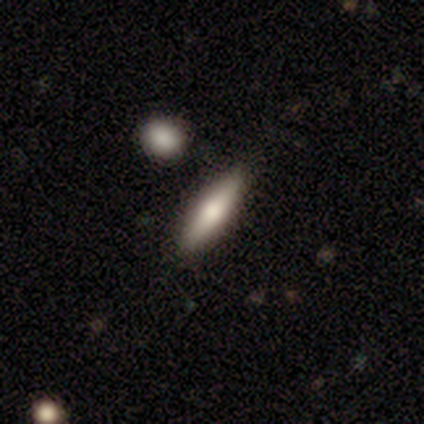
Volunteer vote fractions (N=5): A smooth galaxy with no disk features (40%, tied with featured or disk) that is in between round and cigar-shaped (50%, tied with cigar-shaped).

Vote fractions:
- Smooth or featured? smooth: 40% (tied) / featured or disk: 40% (tied) / star or artifact: 20%
- How rounded? in between: 50% (tied) / cigar-shaped: 50% (tied) / round: 0%
- Merging? none: 100% / minor disturbance: 0% / major disturbance: 0% / merger: 0%